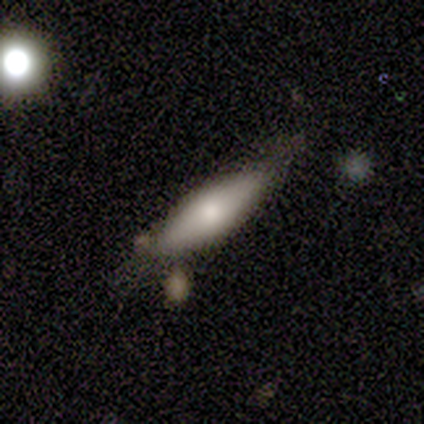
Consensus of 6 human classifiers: This is likely a featured or disk galaxy (67%). It is likely viewed edge-on (75%). Edge-on bulge: clearly rounded (100%). Merging: clearly minor disturbance (83%).